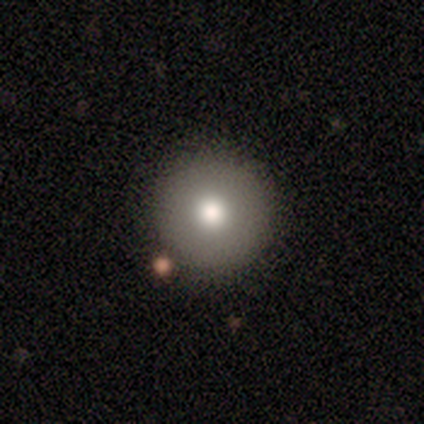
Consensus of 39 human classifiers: smooth-or-featured: smooth: 85% | featured or disk: 8% | star or artifact: 8%
  how-rounded: round: 97% | in between: 3% | cigar-shaped: 0%
  merging: none: 86% | minor disturbance: 8% | merger: 6% | major disturbance: 0%